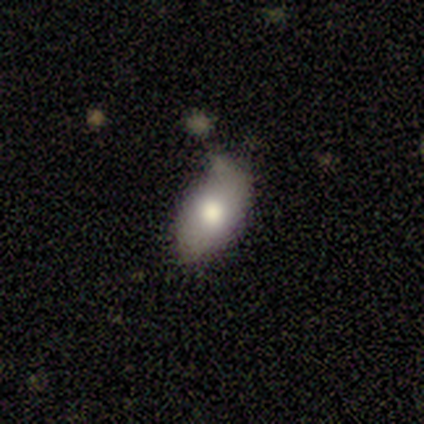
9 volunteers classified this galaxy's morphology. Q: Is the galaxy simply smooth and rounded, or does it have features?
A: smooth — 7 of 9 (78%).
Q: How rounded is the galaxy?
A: in between — 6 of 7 (86%).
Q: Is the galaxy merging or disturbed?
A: none — 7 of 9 (78%).